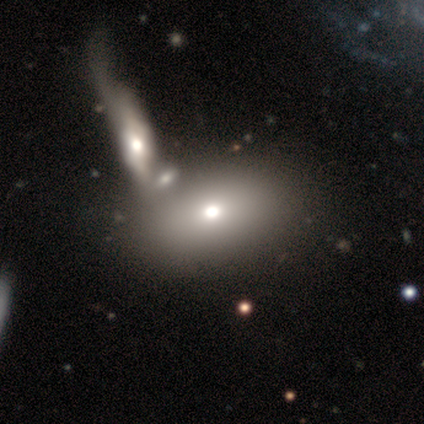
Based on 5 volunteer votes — Smooth or featured? 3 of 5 (60%) said smooth. How rounded? 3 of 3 (100%) said in between. Merging? 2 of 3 (67%) said minor disturbance.